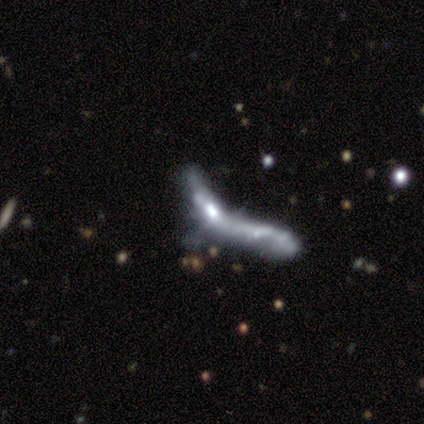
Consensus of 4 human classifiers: This appears to be a featured or disk galaxy (50%) with a strong bar (50%, tied with no), no spiral arms (100%) and a large central bulge (50%, tied with moderate). Merging: minor disturbance (33%, tied with major disturbance and merger).